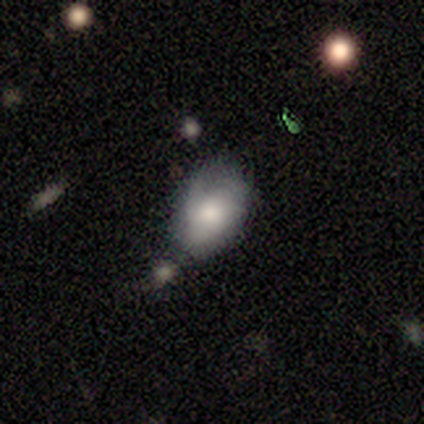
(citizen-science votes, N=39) smooth-or-featured: smooth: 67% | featured or disk: 28% | star or artifact: 5%
  how-rounded: in between: 92% | round: 8% | cigar-shaped: 0%
  merging: minor disturbance: 38% | none: 35% | merger: 16% | major disturbance: 11%